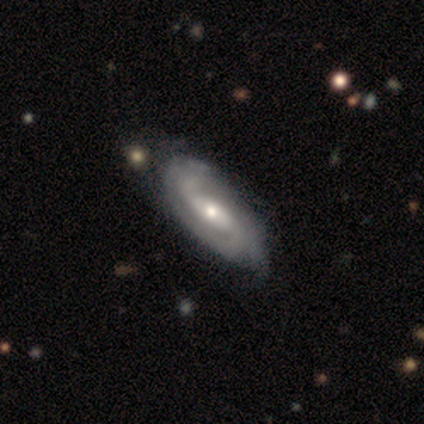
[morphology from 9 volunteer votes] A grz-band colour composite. It shows a featured or disk galaxy (78%) with a weak bar (50%), 2 (50%) medium (67%) spiral arms (100%) and a moderate central bulge (67%). Merging: none (67%).